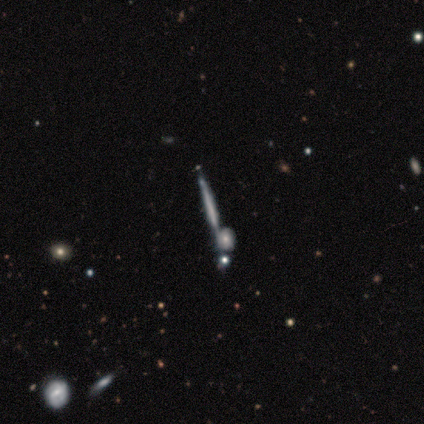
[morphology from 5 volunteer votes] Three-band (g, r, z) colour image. It shows a featured or disk galaxy (60%) viewed edge-on (100%) with no central bulge (100%). Merging: none (80%).